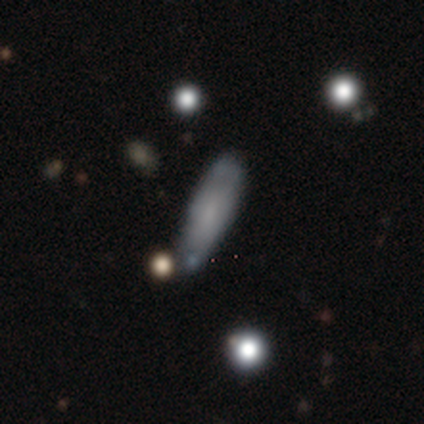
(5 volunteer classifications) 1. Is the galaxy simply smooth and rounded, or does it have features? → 60% smooth, 40% featured or disk, 0% star or artifact.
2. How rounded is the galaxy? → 100% in between, 0% round, 0% cigar-shaped.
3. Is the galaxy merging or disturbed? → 60% none, 20% minor disturbance, 20% merger, 0% major disturbance.